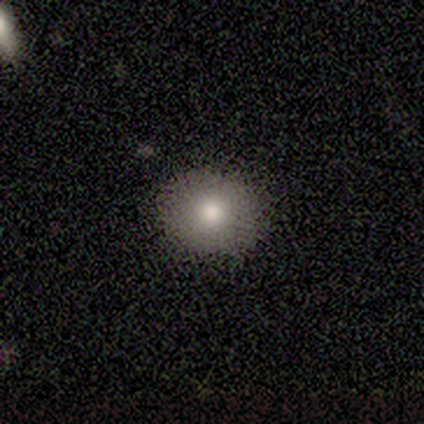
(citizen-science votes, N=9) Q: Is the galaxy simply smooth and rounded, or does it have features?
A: smooth — 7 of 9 (78%).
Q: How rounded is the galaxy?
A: round — 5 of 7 (71%).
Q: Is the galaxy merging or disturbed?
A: none — 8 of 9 (89%).